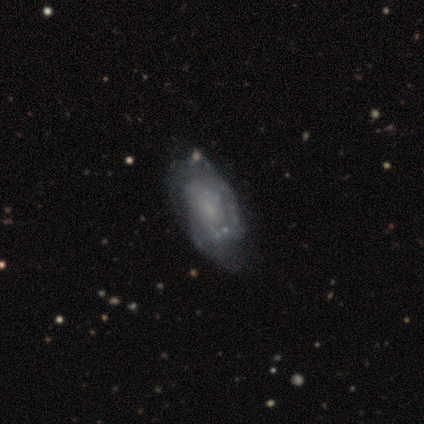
featured or disk 80%, smooth 20%, star or artifact 0%. Down the decision tree: edge-on disk — no (100%); bar — no (75%); spiral arms — yes (75%); spiral arm count — 2 (100%); spiral winding — tight (67%); bulge size — moderate (50%); merging — none (60%).